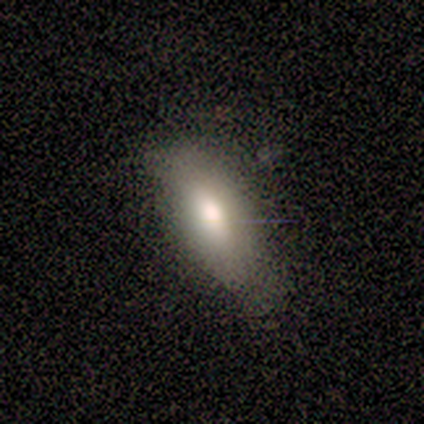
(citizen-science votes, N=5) A smooth galaxy with no disk features (100%) that is in between round and cigar-shaped (80%).

Vote fractions:
- Smooth or featured? smooth: 100% / featured or disk: 0% / star or artifact: 0%
- How rounded? in between: 80% / cigar-shaped: 20% / round: 0%
- Merging? none: 80% / minor disturbance: 20% / major disturbance: 0% / merger: 0%